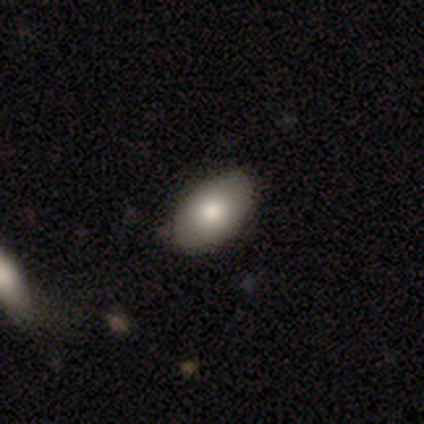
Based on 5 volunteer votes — Overall: smooth (100%). How rounded: in between (100%). Merging: none (100%).